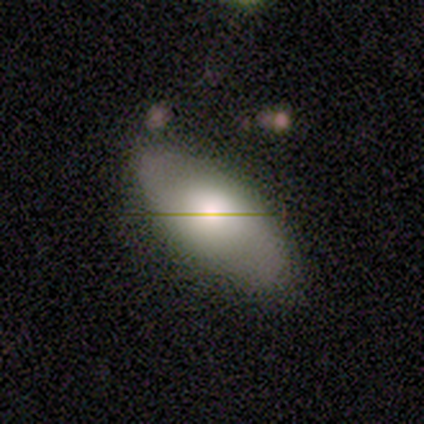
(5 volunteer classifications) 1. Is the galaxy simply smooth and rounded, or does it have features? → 60% smooth, 20% featured or disk, 20% star or artifact.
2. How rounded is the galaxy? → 67% in between, 33% round, 0% cigar-shaped.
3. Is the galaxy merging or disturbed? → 50% none, 25% major disturbance, 25% merger, 0% minor disturbance.